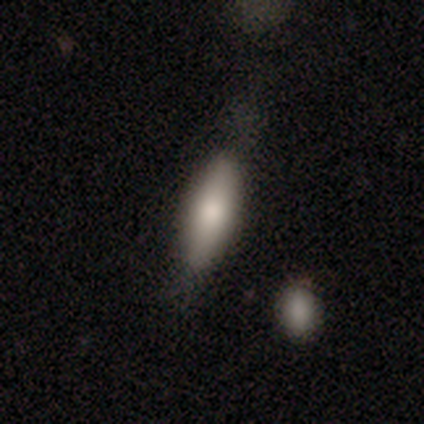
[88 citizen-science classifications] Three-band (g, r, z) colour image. It shows a smooth galaxy with no disk features (84%) that is cigar-shaped (51%). Merging: none (67%).